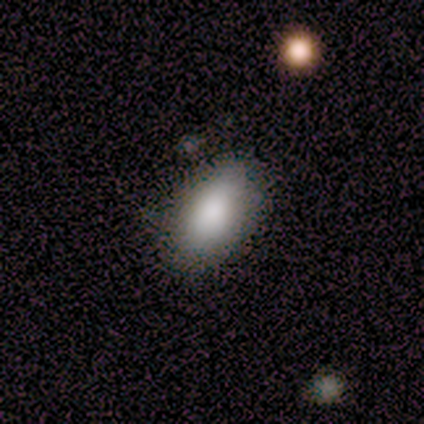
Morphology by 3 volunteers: Smooth or featured: smooth — 100%
How rounded: in between — 100%
Merging: none — 67% (minor disturbance — 33%)